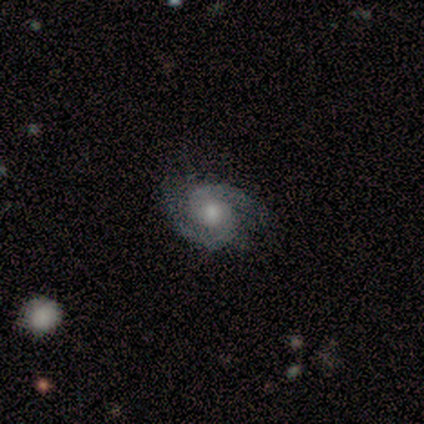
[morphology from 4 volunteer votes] Q: Smooth or featured?
A: featured or disk (100%)
Q: Edge-on disk?
A: no (100%)
Q: Bar?
A: no (75%); runner-up: strong (25%)
Q: Spiral arms?
A: yes (100%)
Q: Spiral winding?
A: tight (50%); runner-up: medium (25%)
Q: Spiral arm count?
A: 2 (100%)
Q: Bulge size?
A: moderate (50%); tied with: small (50%)
Q: Merging?
A: none (100%)